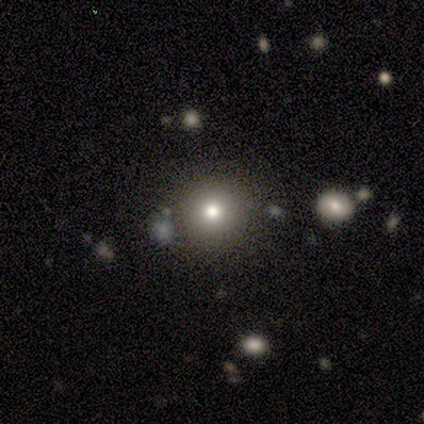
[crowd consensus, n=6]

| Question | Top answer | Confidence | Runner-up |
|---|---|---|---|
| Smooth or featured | smooth | 67% | star or artifact (33%) |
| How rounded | round | 100% | — |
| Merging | none | 75% | minor disturbance (25%) |